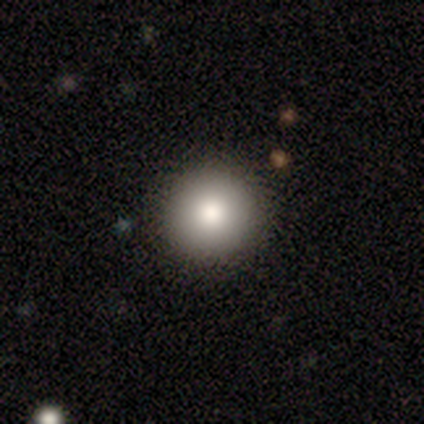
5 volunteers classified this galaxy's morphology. smooth_or_featured: smooth (p=0.60) [alt: featured or disk p=0.20]
how_rounded: round (p=1.00)
merging: none (p=1.00)